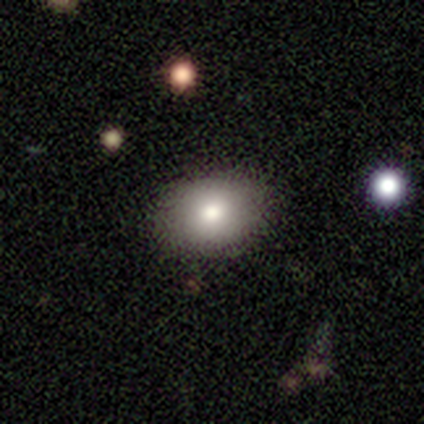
Morphology: type=smooth (100%); roundness=in between (60%); merging=none (100%).